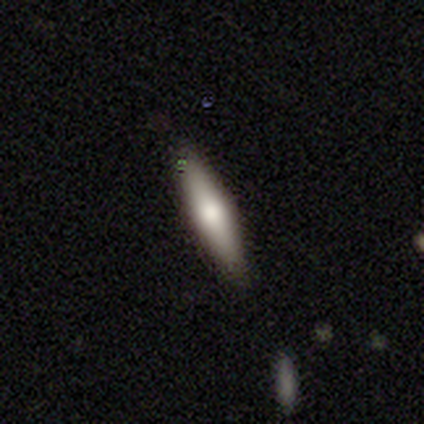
Smooth or featured?
  - smooth: 40% * (tied)
  - featured or disk: 40% * (tied)
  - star or artifact: 20%
How rounded?
  - cigar-shaped: 100% *
  - round: 0%
  - in between: 0%
Merging?
  - none: 50% *
  - minor disturbance: 25%
  - merger: 25%
  - major disturbance: 0%